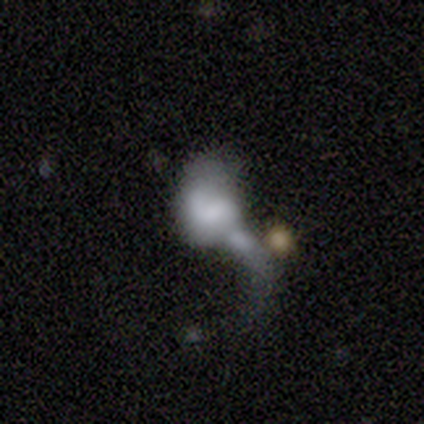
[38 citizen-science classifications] A smooth galaxy with no disk features (55%) that is in between round and cigar-shaped (52%).

Vote fractions:
- Smooth or featured? smooth: 55% / featured or disk: 29% / star or artifact: 16%
- How rounded? in between: 52% / round: 48% / cigar-shaped: 0%
- Merging? major disturbance: 53% / merger: 34% / minor disturbance: 12% / none: 0%